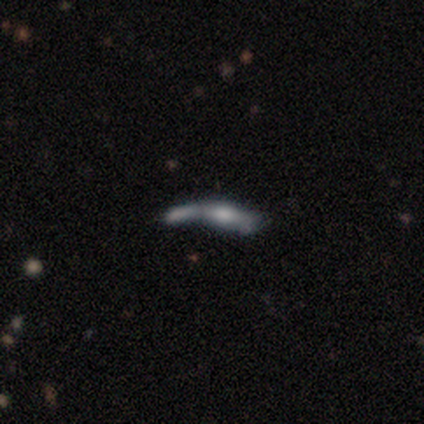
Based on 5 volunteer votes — Smooth or featured? 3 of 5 (60%) said featured or disk. Edge-on disk? 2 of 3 (67%) said yes. Edge-on bulge? 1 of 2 (50%, tied with rounded) said none. Merging? 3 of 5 (60%) said merger.